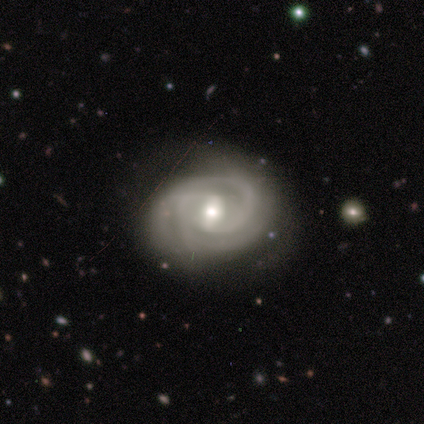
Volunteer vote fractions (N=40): Overall: featured or disk (98%). Edge-on disk: no (95%). Bar: weak (62%). Spiral arms: yes (97%). Spiral arm count: 2 (58%; 3 28%). Spiral winding: tight (75%). Bulge size: moderate (59%; small 27%). Merging: none (72%).